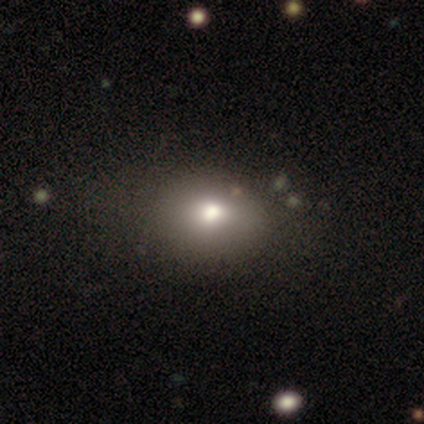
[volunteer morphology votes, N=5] Smooth or featured: smooth — 80% (star or artifact — 20%)
How rounded: in between — 75% (round — 25%)
Merging: none — 75% (merger — 25%)